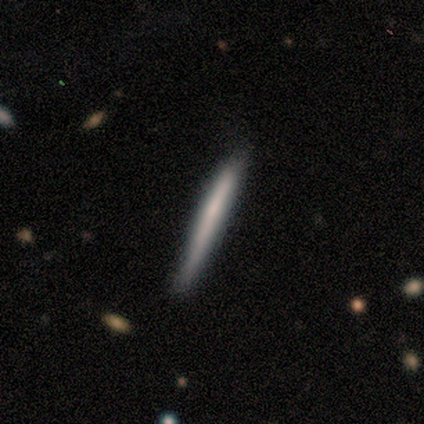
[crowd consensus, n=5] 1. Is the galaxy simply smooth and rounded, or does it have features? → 60% featured or disk, 40% smooth, 0% star or artifact.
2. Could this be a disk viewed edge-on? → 100% yes, 0% no.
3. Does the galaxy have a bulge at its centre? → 100% none, 0% boxy, 0% rounded.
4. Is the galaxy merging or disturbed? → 80% none, 20% minor disturbance, 0% major disturbance, 0% merger.